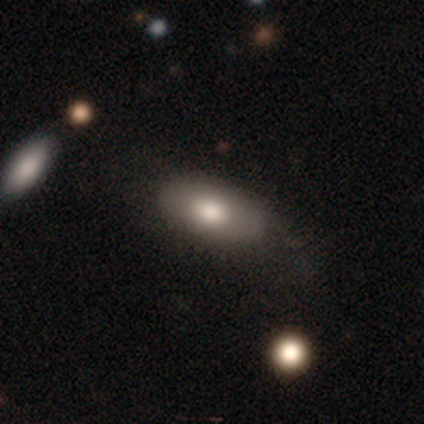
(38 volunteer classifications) Smooth or featured: smooth — 66% (featured or disk — 26%)
How rounded: in between — 88% (cigar-shaped — 8%)
Merging: none — 57% (minor disturbance — 31%)